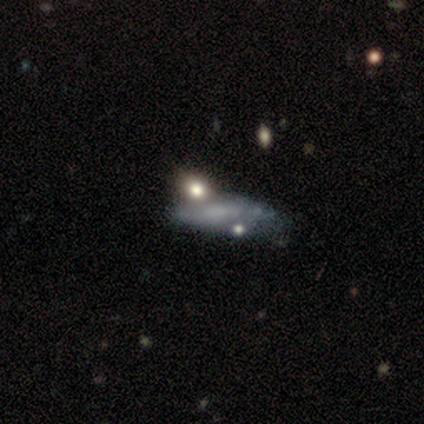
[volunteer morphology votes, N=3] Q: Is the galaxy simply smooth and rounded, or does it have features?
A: featured or disk — 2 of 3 (67%).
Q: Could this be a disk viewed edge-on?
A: yes — 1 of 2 (50%, tied with no).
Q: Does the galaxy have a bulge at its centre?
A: rounded — 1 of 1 (100%).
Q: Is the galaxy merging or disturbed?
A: minor disturbance — 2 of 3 (67%).